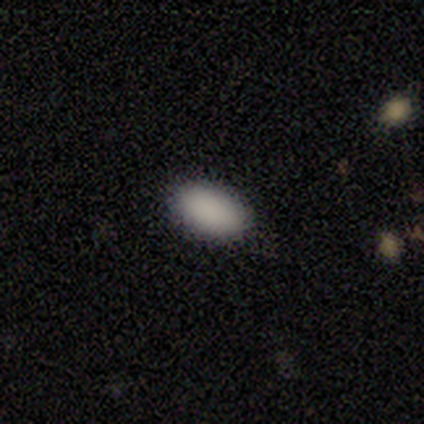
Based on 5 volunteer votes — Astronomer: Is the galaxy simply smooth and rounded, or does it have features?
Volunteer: smooth — 80%.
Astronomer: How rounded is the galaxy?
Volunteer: in between — 100%.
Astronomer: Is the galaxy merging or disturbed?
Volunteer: none — 100%.